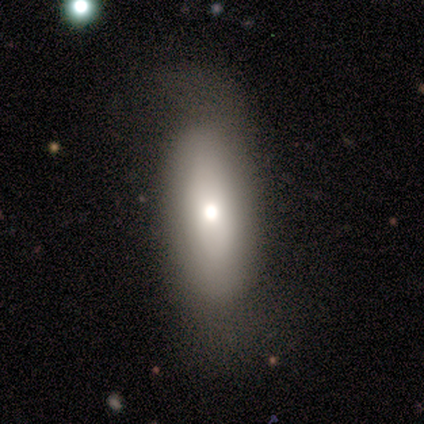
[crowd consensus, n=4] Smooth or featured: smooth — 75% (featured or disk — 25%)
How rounded: in between — 67% (cigar-shaped — 33%)
Merging: none — 100%